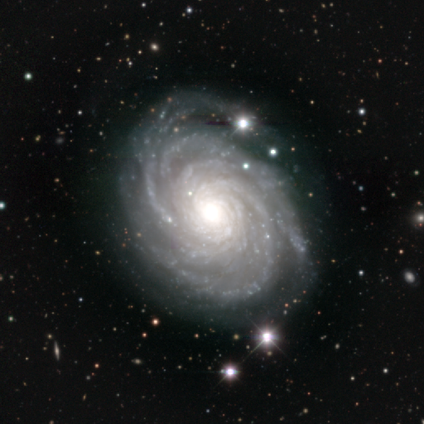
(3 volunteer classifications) A featured or disk galaxy (100%) with no bar (67%), 3 (33%, tied with 4 and more than 4) tight (100%) spiral arms (100%) and a moderate central bulge (100%).

Vote fractions:
- Smooth or featured? featured or disk: 100% / smooth: 0% / star or artifact: 0%
- Edge-on disk? no: 100% / yes: 0%
- Bar? no: 67% / strong: 33% / weak: 0%
- Spiral arms? yes: 100% / no: 0%
- Spiral winding? tight: 100% / medium: 0% / loose: 0%
- Spiral arm count? 3: 33% (tied) / 4: 33% (tied) / more than 4: 33% (tied) / 1: 0% / 2: 0% / can't tell: 0%
- Bulge size? moderate: 100% / dominant: 0% / large: 0% / small: 0% / none: 0%
- Merging? none: 100% / minor disturbance: 0% / major disturbance: 0% / merger: 0%